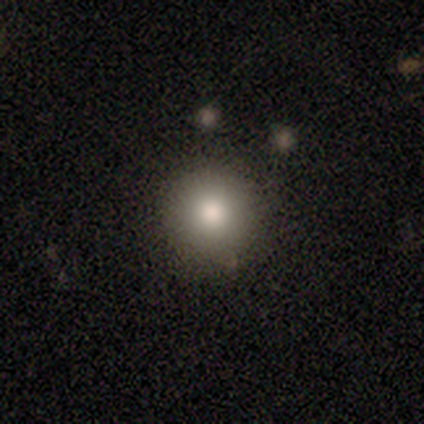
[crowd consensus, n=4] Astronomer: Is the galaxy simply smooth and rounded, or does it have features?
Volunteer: smooth — 50%, tied with featured or disk at 50%.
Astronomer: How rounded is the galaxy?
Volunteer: round — 100%.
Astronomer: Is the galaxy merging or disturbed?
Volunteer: none — 100%.